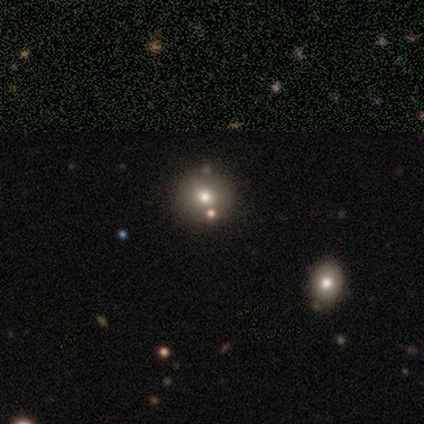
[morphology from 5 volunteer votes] A star or artifact, not a galaxy (60%).

Vote fractions:
- Smooth or featured? star or artifact: 60% / smooth: 40% / featured or disk: 0%